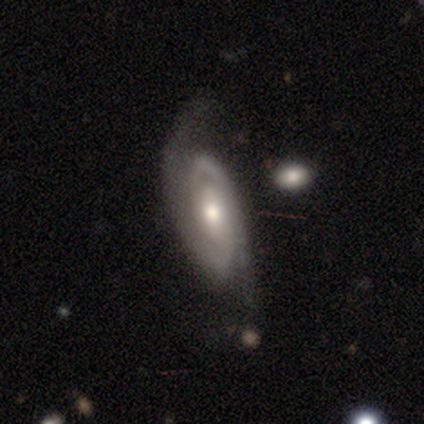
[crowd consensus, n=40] featured or disk 90%, smooth 10%, star or artifact 0%. Down the decision tree: edge-on disk — no (100%); bar — no (64%); spiral arms — yes (100%); spiral arm count — 2 (78%); spiral winding — tight (69%); bulge size — moderate (61%); merging — none (45%).